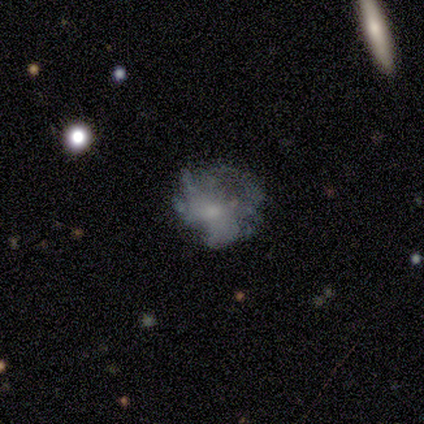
Smooth or featured?
  - smooth: 60% *
  - featured or disk: 40%
  - star or artifact: 0%
How rounded?
  - round: 67% *
  - in between: 33%
  - cigar-shaped: 0%
Merging?
  - none: 60% *
  - major disturbance: 40%
  - minor disturbance: 0%
  - merger: 0%